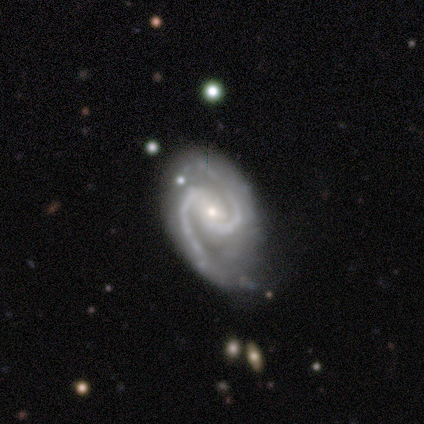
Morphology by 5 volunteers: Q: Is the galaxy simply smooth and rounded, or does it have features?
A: featured or disk — 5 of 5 (100%).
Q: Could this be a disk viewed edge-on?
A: no — 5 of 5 (100%).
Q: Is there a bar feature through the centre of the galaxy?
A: strong — 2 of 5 (40%, tied with no).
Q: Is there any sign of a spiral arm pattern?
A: yes — 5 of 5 (100%).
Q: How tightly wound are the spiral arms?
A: medium — 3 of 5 (60%).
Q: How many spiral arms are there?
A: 2 — 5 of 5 (100%).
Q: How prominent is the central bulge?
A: small — 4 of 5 (80%).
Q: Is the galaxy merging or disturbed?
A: none — 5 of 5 (100%).